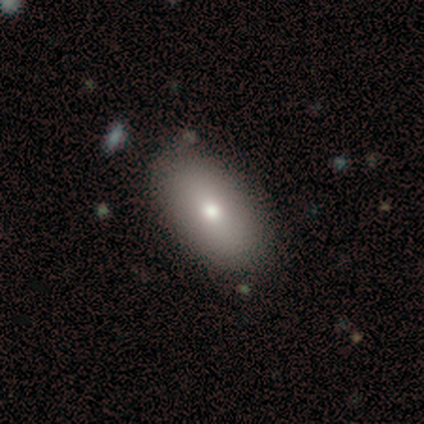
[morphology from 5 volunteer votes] Smooth or featured? smooth (80%)
How rounded? in between (75%)
Merging? none (60%)